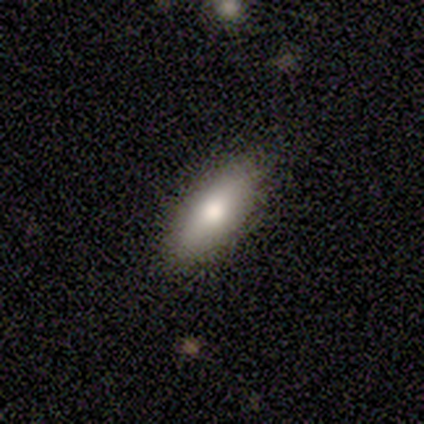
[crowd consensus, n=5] Smooth or featured: smooth — 60% (featured or disk — 20%)
How rounded: in between — 100%
Merging: none — 100%